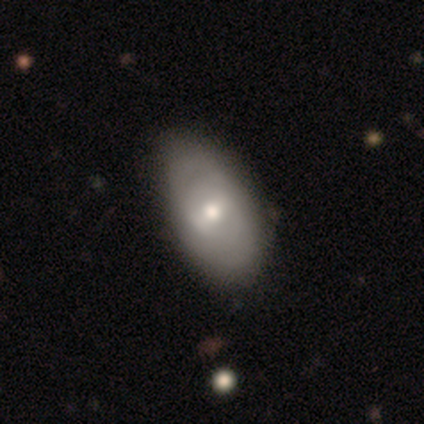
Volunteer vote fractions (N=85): Smooth or featured: smooth — 47% (tied with featured or disk — 47%)
How rounded: in between — 90% (round — 8%)
Merging: none — 71% (minor disturbance — 29%)